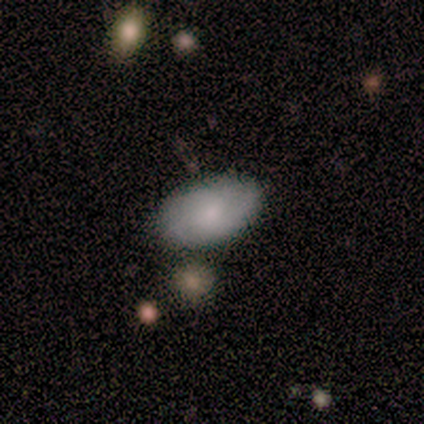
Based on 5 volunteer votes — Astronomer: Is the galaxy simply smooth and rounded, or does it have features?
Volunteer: smooth — 100%.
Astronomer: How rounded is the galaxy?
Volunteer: in between — 100%.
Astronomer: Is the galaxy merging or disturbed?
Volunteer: none — 80%.